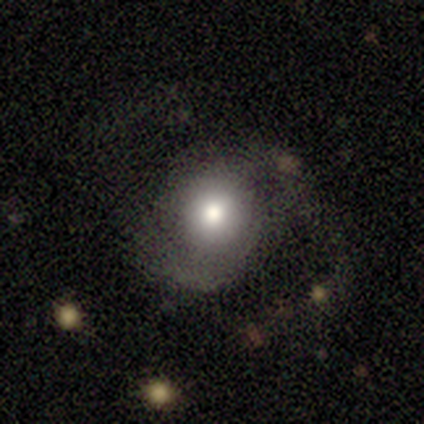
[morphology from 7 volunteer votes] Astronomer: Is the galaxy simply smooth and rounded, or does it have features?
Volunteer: smooth — 57% (runner-up: featured or disk, 43%).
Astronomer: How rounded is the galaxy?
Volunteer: round — 100%.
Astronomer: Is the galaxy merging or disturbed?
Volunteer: none — 57%.